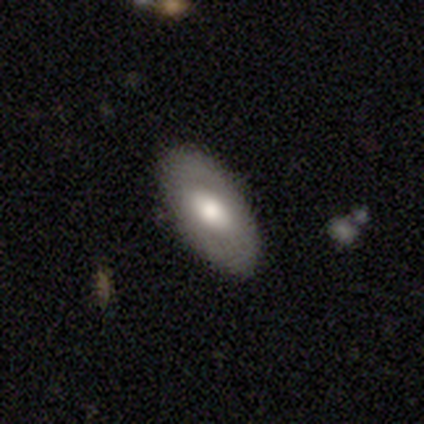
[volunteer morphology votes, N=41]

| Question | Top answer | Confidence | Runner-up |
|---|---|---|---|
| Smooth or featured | smooth | 59% | featured or disk (39%) |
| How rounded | in between | 96% | cigar-shaped (4%) |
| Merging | none | 85% | minor disturbance (12%) |